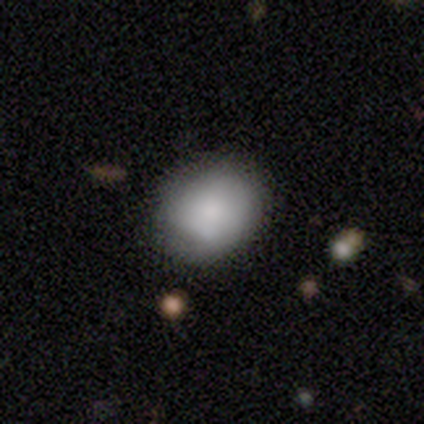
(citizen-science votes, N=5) This is clearly a smooth galaxy (80%). How rounded: possibly round (50%, tied with in between). Merging: likely none (60%).